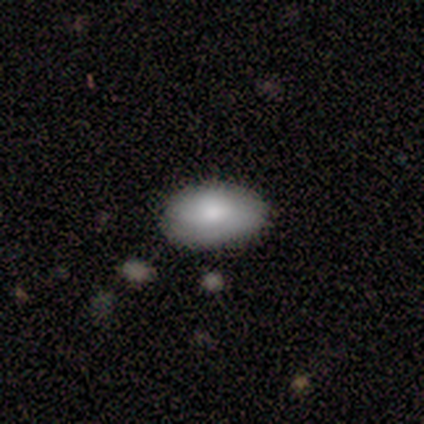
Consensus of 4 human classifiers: Smooth or featured: smooth — 75% (featured or disk — 25%)
How rounded: in between — 67% (round — 33%)
Merging: none — 75% (merger — 25%)